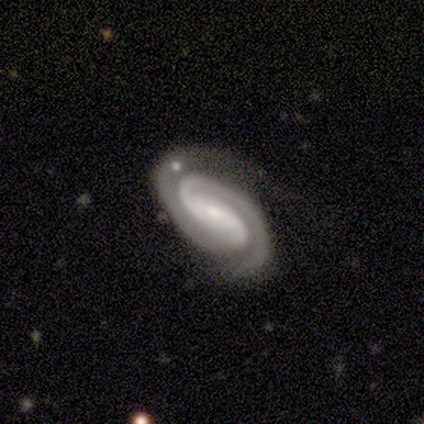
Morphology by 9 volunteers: This appears to be a featured or disk galaxy (100%) with no bar (78%), 2 (100%) tight (89%) spiral arms (100%) and a small central bulge (67%). Merging: none (56%).